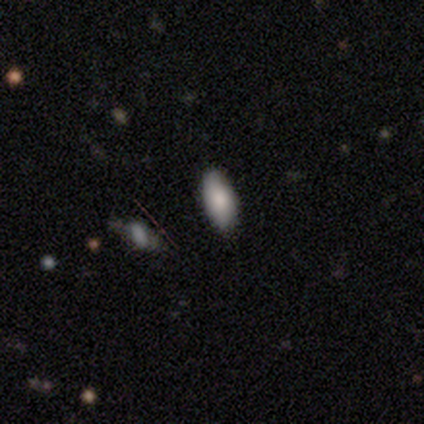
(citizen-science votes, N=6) A smooth galaxy with no disk features (67%) that is in between round and cigar-shaped (100%).

Vote fractions:
- Smooth or featured? smooth: 67% / featured or disk: 17% / star or artifact: 17%
- How rounded? in between: 100% / round: 0% / cigar-shaped: 0%
- Merging? none: 60% / minor disturbance: 20% / merger: 20% / major disturbance: 0%